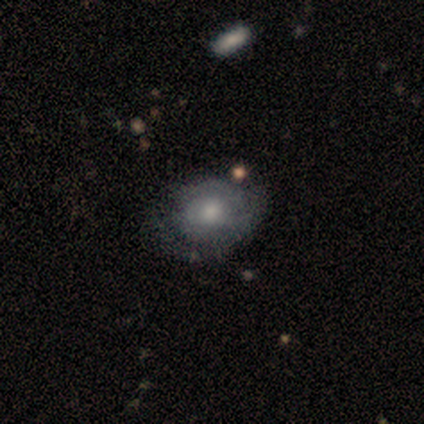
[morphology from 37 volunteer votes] Q: Smooth or featured?
A: smooth (49%); runner-up: featured or disk (43%)
Q: How rounded?
A: round (56%); runner-up: in between (44%)
Q: Merging?
A: none (62%); runner-up: minor disturbance (29%)